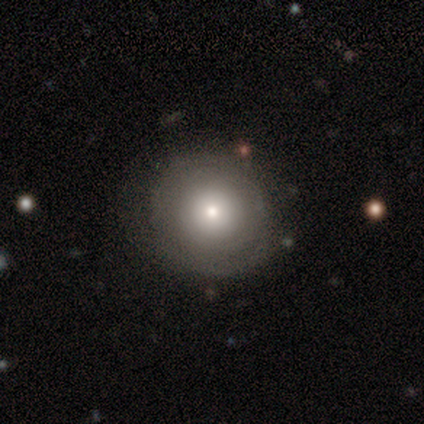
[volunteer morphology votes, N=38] Smooth or featured: smooth — 74% (featured or disk — 24%)
How rounded: round — 96% (in between — 4%)
Merging: none — 70% (minor disturbance — 19%)